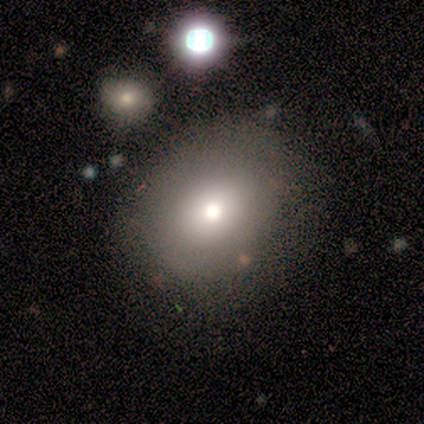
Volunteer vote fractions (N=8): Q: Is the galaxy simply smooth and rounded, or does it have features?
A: smooth — 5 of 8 (62%).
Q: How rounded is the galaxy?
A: in between — 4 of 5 (80%).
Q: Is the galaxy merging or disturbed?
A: none — 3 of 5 (60%).